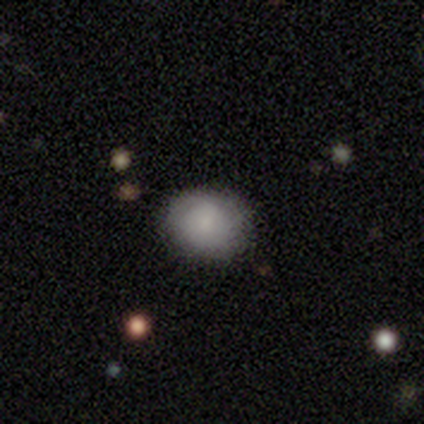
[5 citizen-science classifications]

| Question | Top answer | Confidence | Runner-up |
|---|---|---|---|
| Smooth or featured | smooth | 80% | featured or disk (20%) |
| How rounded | in between | 75% | round (25%) |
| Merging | none | 80% | major disturbance (20%) |